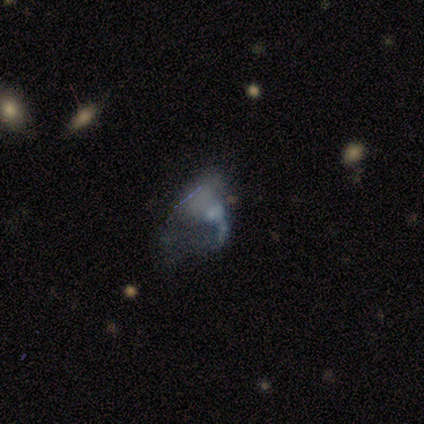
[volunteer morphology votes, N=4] star or artifact 75%, featured or disk 25%, smooth 0%.